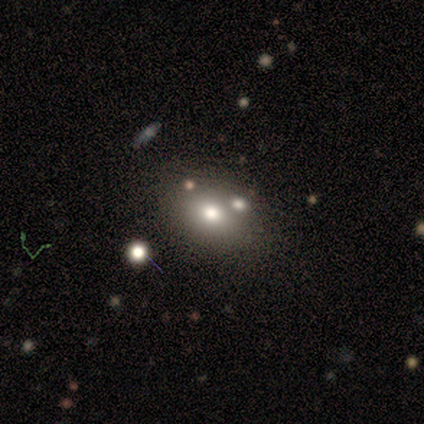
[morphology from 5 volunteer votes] Overall: smooth (80%). How rounded: round (50%, tied with in between). Merging: none (80%).